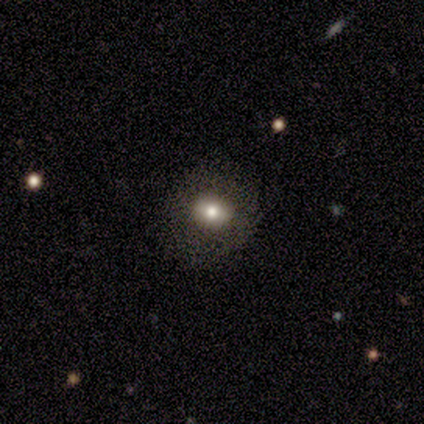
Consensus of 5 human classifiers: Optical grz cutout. It shows a smooth galaxy with no disk features (60%) that is round (100%). Merging: none (75%).